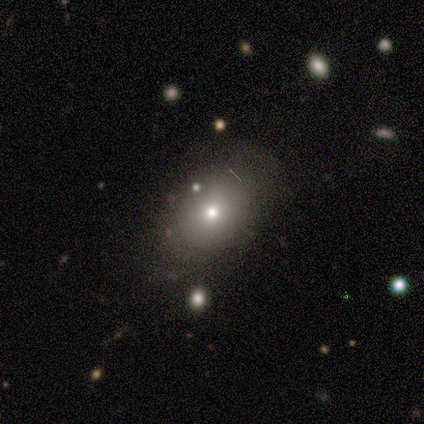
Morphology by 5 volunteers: Smooth or featured? smooth (80%)
How rounded? in between (100%)
Merging? none (60%)